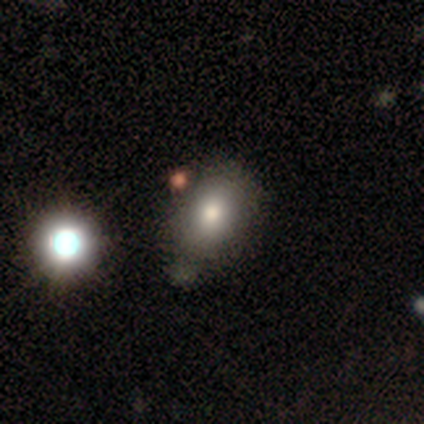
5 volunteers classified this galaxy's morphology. smooth_or_featured: smooth (p=0.80) [alt: star or artifact p=0.20]
how_rounded: in between (p=0.75) [alt: round p=0.25]
merging: none (p=0.75) [alt: minor disturbance p=0.25]